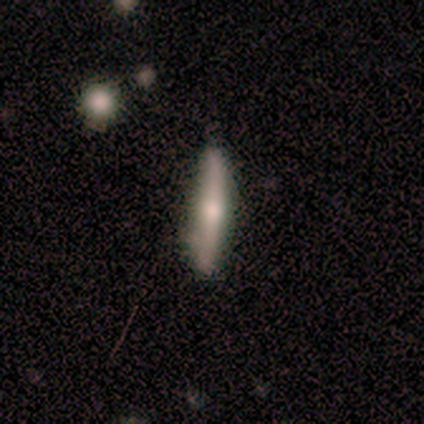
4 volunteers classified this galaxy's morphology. Smooth or featured?
  - smooth: 75% *
  - featured or disk: 25%
  - star or artifact: 0%
How rounded?
  - cigar-shaped: 100% *
  - round: 0%
  - in between: 0%
Merging?
  - none: 100% *
  - minor disturbance: 0%
  - major disturbance: 0%
  - merger: 0%